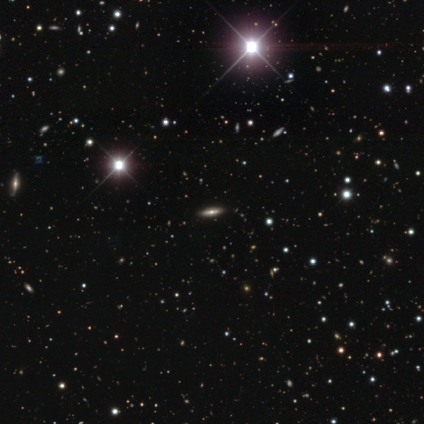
Volunteers were most divided on "smooth or featured" (2-way tie): smooth: 40%, star or artifact: 40%, featured or disk: 20%. More confident: how rounded — cigar-shaped (100%); merging — none (100%).